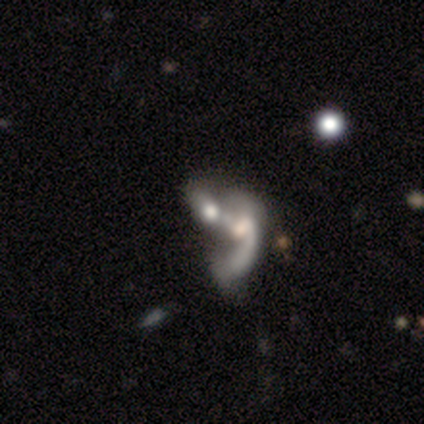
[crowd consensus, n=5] Smooth or featured? featured or disk (60%)
Edge-on disk? no (100%)
Bar? no (67%)
Spiral arms? no (67%)
Bulge size? moderate (33%, tied with small and none)
Merging? none (40%, tied with merger)